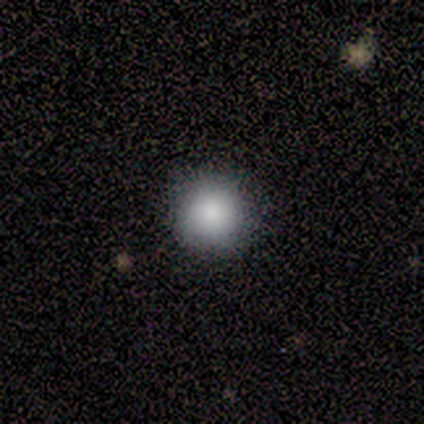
A smooth galaxy with no disk features (57%) that is round (100%).

Vote fractions:
- Smooth or featured? smooth: 57% / star or artifact: 29% / featured or disk: 14%
- How rounded? round: 100% / in between: 0% / cigar-shaped: 0%
- Merging? none: 100% / minor disturbance: 0% / major disturbance: 0% / merger: 0%